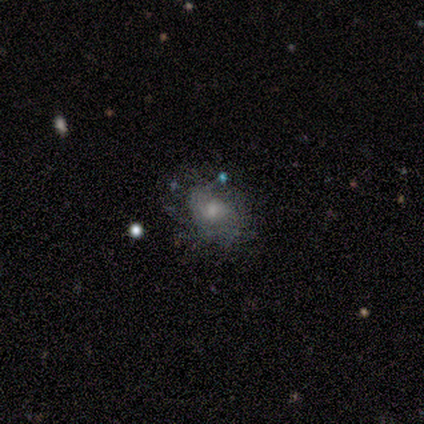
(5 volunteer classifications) smooth_or_featured: featured or disk (p=0.80) [alt: smooth p=0.20]
disk_edge_on: no (p=1.00)
bar: no (p=0.75) [alt: weak p=0.25]
has_spiral_arms: yes (p=0.50) [tied with: no p=0.50]
spiral_winding: medium (p=1.00)
spiral_arm_count: 2 (p=0.50) [tied with: can't tell p=0.50]
bulge_size: moderate (p=0.50) [alt: small p=0.25]
merging: none (p=1.00)